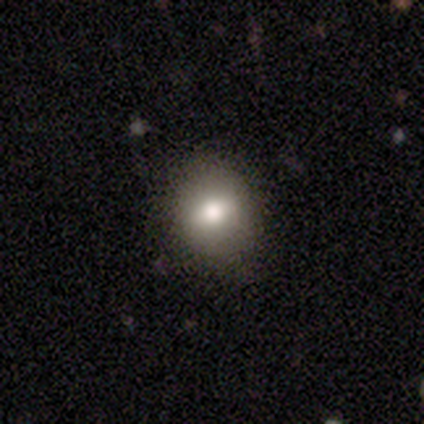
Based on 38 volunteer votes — Smooth or featured? smooth (74%)
How rounded? round (57%)
Merging? none (88%)